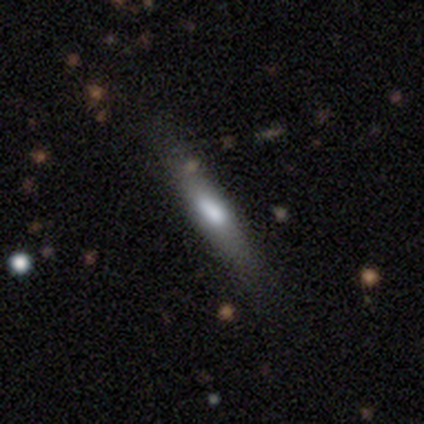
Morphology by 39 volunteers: smooth 51%, featured or disk 46%, star or artifact 3%. Down the decision tree: how rounded — cigar-shaped (75%); merging — none (68%).